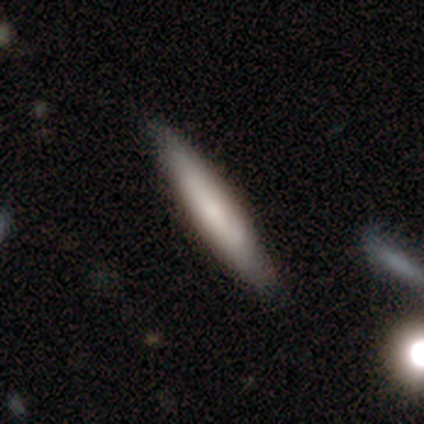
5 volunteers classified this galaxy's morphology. Overall: smooth (100%). How rounded: cigar-shaped (100%). Merging: none (60%; minor disturbance 40%).